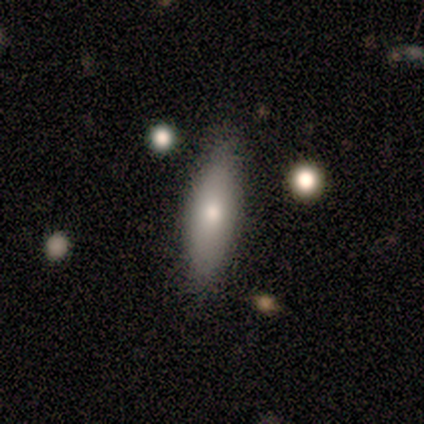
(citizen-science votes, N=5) Q: Smooth or featured?
A: smooth (60%); runner-up: featured or disk (40%)
Q: How rounded?
A: in between (100%)
Q: Merging?
A: none (100%)